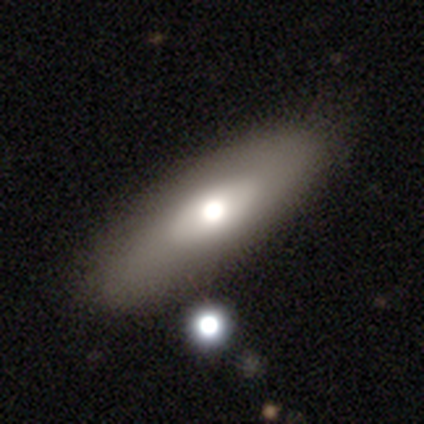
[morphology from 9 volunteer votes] Smooth or featured: smooth — 44% (tied with featured or disk — 44%)
How rounded: in between — 50% (round — 25%)
Merging: none — 75% (minor disturbance — 12%)